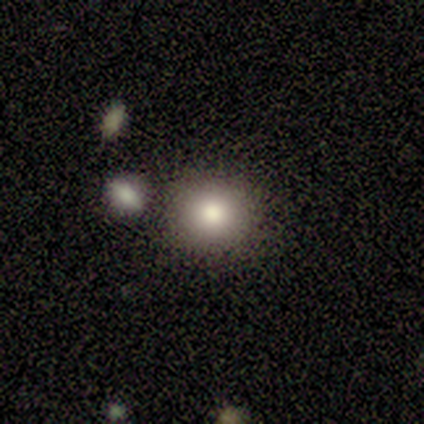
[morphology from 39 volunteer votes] type=smooth (56%); roundness=round (86%); merging=none (81%).